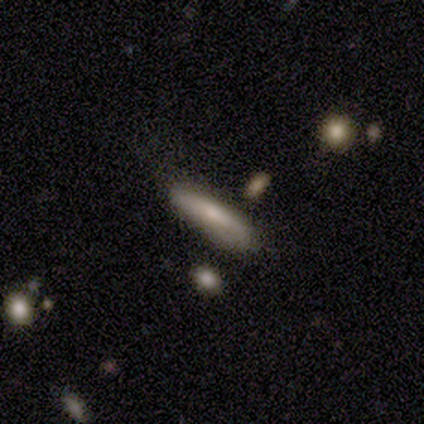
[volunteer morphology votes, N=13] A smooth galaxy with no disk features (69%) that is cigar-shaped (78%). Merging: none (62%).